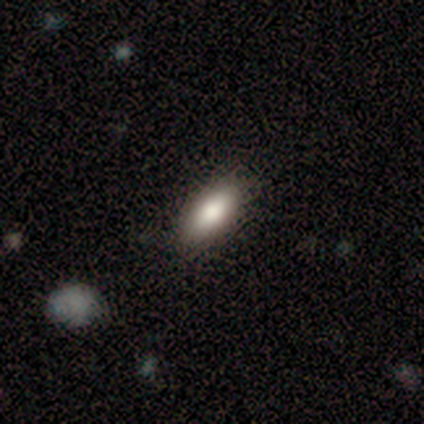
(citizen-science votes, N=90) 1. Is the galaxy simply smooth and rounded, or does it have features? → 84% smooth, 10% featured or disk, 6% star or artifact.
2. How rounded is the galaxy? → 76% in between, 22% cigar-shaped, 1% round.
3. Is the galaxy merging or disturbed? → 88% none, 6% minor disturbance, 4% merger, 2% major disturbance.